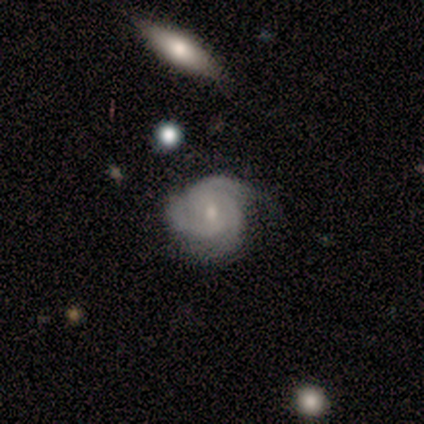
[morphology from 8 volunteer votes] featured or disk 75%, smooth 12%, star or artifact 12%. Down the decision tree: edge-on disk — no (100%); bar — no (67%); spiral arms — yes (100%); spiral arm count — 3 (100%); spiral winding — tight (67%); bulge size — small (67%); merging — none (86%).